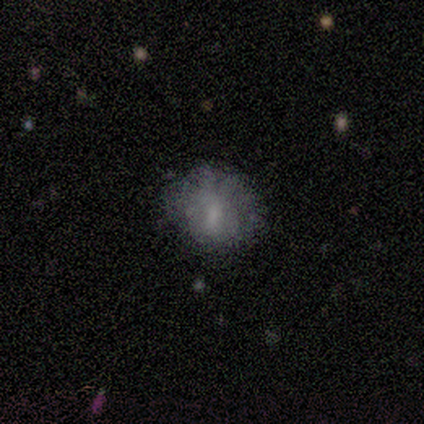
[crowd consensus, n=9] A smooth galaxy with no disk features (56%) that is round (60%).

Vote fractions:
- Smooth or featured? smooth: 56% / featured or disk: 33% / star or artifact: 11%
- How rounded? round: 60% / in between: 40% / cigar-shaped: 0%
- Merging? none: 50% (tied) / minor disturbance: 50% (tied) / major disturbance: 0% / merger: 0%